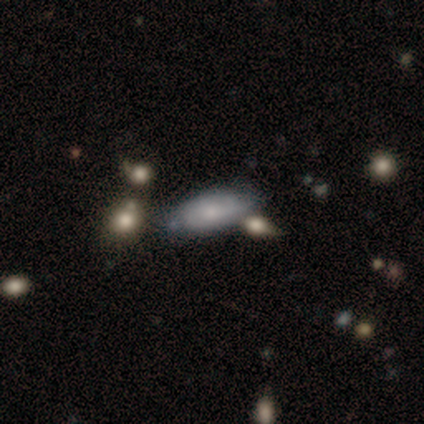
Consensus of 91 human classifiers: smooth 64%, featured or disk 29%, star or artifact 8%. Down the decision tree: how rounded — in between (88%); merging — none (54%).